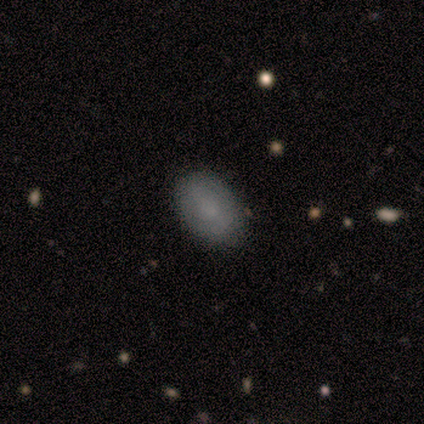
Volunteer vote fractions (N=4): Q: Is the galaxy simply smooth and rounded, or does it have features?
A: smooth — 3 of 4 (75%).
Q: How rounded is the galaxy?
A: in between — 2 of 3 (67%).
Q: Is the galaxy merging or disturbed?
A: none — 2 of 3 (67%).